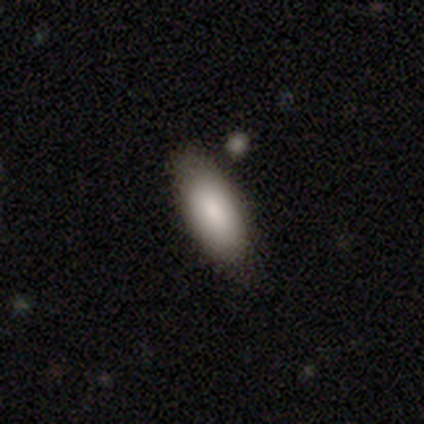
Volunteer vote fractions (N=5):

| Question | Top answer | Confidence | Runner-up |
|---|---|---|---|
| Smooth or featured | smooth | 80% | featured or disk (20%) |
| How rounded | in between | 75% | round (25%) |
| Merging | none | 80% | minor disturbance (20%) |